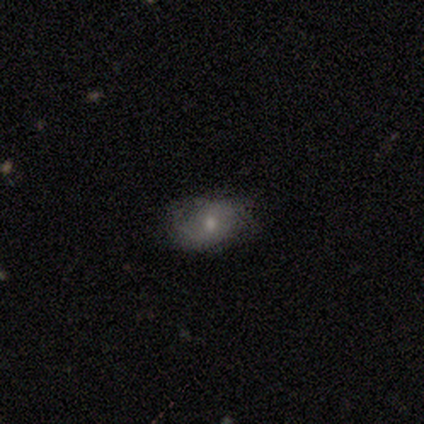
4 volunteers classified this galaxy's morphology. A smooth galaxy with no disk features (75%) that is in between round and cigar-shaped (100%).

Vote fractions:
- Smooth or featured? smooth: 75% / featured or disk: 25% / star or artifact: 0%
- How rounded? in between: 100% / round: 0% / cigar-shaped: 0%
- Merging? none: 50% (tied) / minor disturbance: 50% (tied) / major disturbance: 0% / merger: 0%